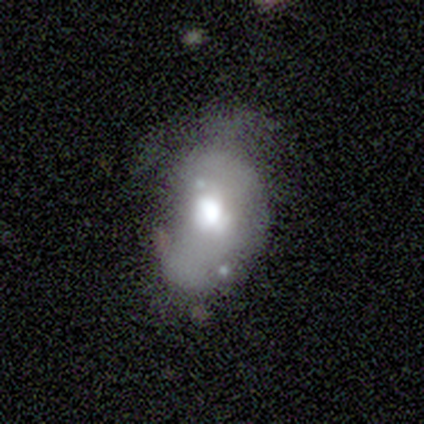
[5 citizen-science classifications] Smooth or featured? 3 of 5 (60%) said featured or disk. Edge-on disk? 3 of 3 (100%) said no. Bar? 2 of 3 (67%) said no. Spiral arms? 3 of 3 (100%) said no. Bulge size? 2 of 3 (67%) said moderate. Merging? 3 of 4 (75%) said major disturbance.